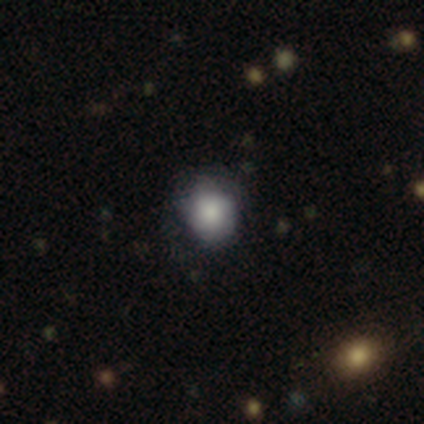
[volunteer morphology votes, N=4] This is likely a smooth galaxy (75%). How rounded: likely round (67%). Merging: possibly none (50%, tied with minor disturbance).